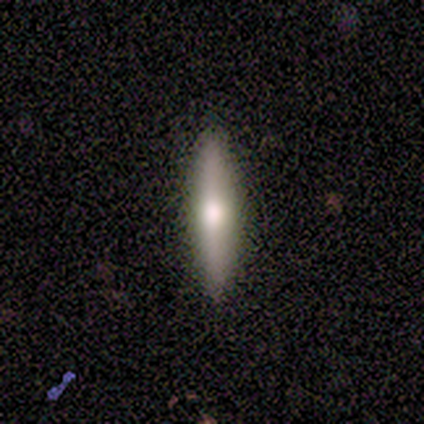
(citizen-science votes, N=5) Smooth or featured: smooth — 80% (featured or disk — 20%)
How rounded: cigar-shaped — 100%
Merging: none — 100%